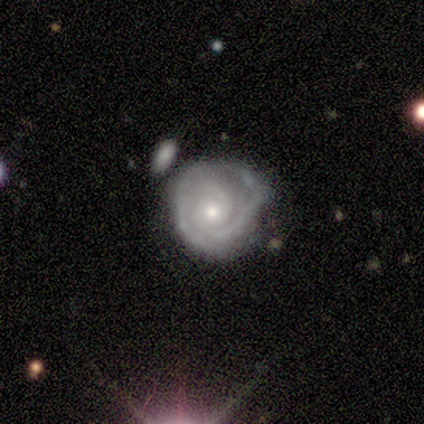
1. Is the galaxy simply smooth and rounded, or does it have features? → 100% featured or disk, 0% smooth, 0% star or artifact.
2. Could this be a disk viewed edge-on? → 100% no, 0% yes.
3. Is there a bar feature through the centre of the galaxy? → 100% no, 0% strong, 0% weak.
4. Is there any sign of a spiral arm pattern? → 100% yes, 0% no.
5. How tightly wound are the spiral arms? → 100% tight, 0% medium, 0% loose.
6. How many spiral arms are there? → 40% 2 (tied), 40% can't tell (tied), 20% 3, 0% 1, 0% 4, 0% more than 4.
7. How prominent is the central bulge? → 80% small, 20% moderate, 0% dominant, 0% large, 0% none.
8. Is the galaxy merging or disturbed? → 100% none, 0% minor disturbance, 0% major disturbance, 0% merger.